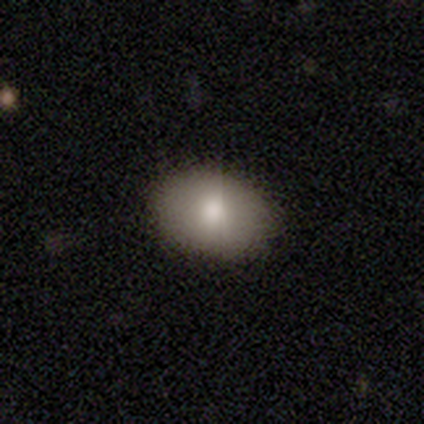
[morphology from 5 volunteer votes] A smooth galaxy with no disk features (80%) that is in between round and cigar-shaped (100%).

Vote fractions:
- Smooth or featured? smooth: 80% / featured or disk: 20% / star or artifact: 0%
- How rounded? in between: 100% / round: 0% / cigar-shaped: 0%
- Merging? none: 80% / minor disturbance: 20% / major disturbance: 0% / merger: 0%